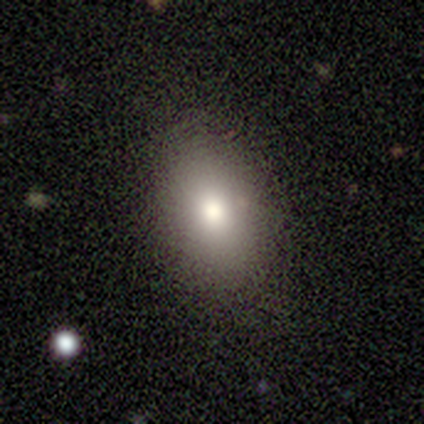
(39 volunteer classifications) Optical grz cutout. It shows a smooth galaxy with no disk features (79%) that is in between round and cigar-shaped (87%). Merging: none (86%).